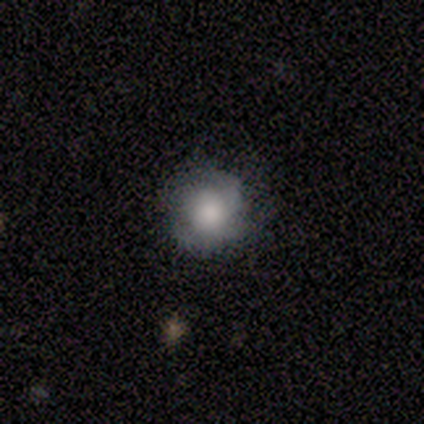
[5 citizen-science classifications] Volunteers were most divided on "bulge size" (3-way tie): large: 33%, moderate: 33%, small: 33%, dominant: 0%, none: 0%. More confident: edge-on disk — no (100%); bar — no (100%); merging — none (100%); spiral arms — no (67%); smooth or featured — featured or disk (60%).